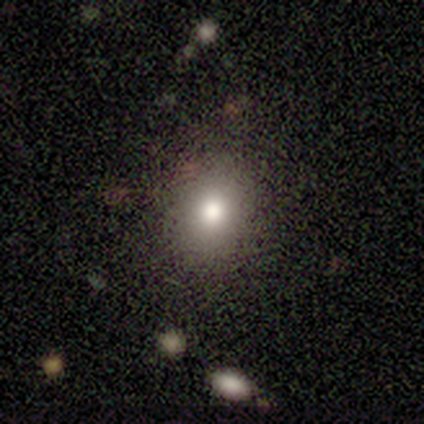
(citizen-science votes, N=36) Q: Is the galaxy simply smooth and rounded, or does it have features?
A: smooth — 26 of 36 (72%).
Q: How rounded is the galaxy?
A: in between — 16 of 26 (62%).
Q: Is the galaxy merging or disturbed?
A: none — 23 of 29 (79%).